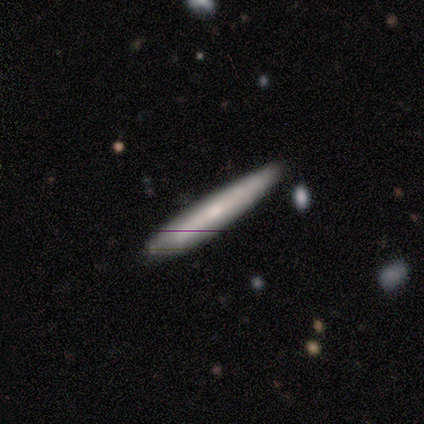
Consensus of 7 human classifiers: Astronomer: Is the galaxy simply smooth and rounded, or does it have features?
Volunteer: smooth — 57% (runner-up: featured or disk, 43%).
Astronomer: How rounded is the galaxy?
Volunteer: cigar-shaped — 75%.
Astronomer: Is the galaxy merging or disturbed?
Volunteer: none — 71%.